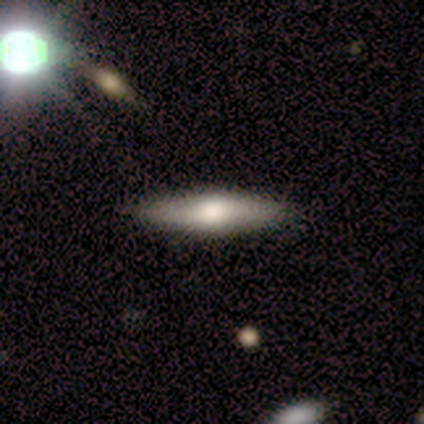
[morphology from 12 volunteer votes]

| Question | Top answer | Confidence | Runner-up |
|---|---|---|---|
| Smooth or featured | smooth | 75% | featured or disk (25%) |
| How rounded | cigar-shaped | 67% | in between (33%) |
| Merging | none | 100% | — |